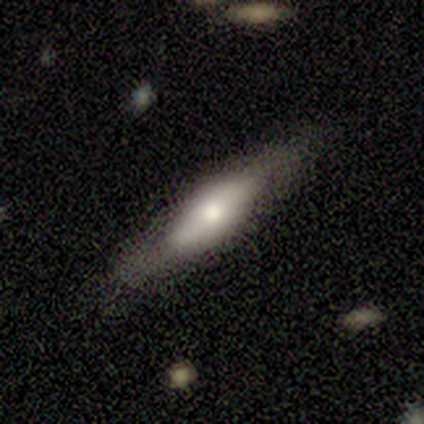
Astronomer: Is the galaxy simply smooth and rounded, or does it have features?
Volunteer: featured or disk — 51% (runner-up: smooth, 49%).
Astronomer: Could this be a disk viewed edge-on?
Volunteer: yes — 75%.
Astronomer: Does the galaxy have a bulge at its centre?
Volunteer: rounded — 80%.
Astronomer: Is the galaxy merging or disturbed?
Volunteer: none — 72%.